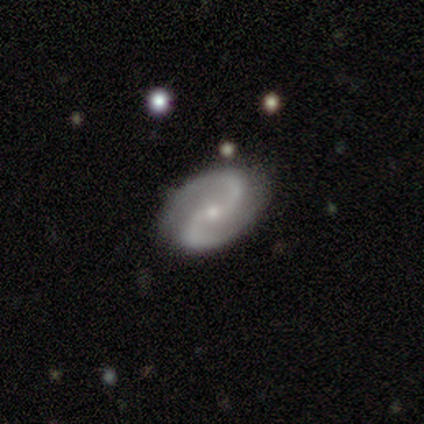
A featured or disk galaxy (88%) with no bar (46%), 2 (97%) medium (64%) spiral arms (95%) and a small central bulge (71%).

Vote fractions:
- Smooth or featured? featured or disk: 88% / smooth: 6% / star or artifact: 6%
- Edge-on disk? no: 93% / yes: 7%
- Bar? no: 46% / weak: 39% / strong: 15%
- Spiral arms? yes: 95% / no: 5%
- Spiral winding? medium: 64% / loose: 21% / tight: 15%
- Spiral arm count? 2: 97% / more than 4: 3% / 1: 0% / 3: 0% / 4: 0% / can't tell: 0%
- Bulge size? small: 71% / moderate: 24% / large: 2% / none: 2% / dominant: 0%
- Merging? none: 81% / minor disturbance: 13% / merger: 4% / major disturbance: 2%